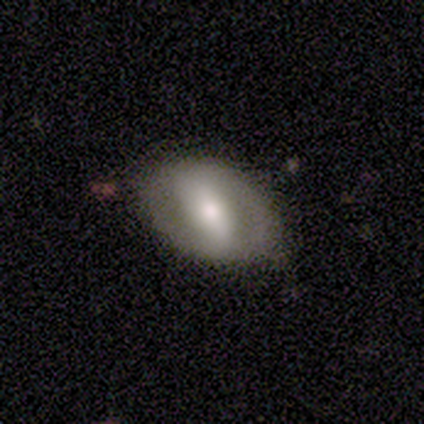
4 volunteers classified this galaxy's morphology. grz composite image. It shows a smooth galaxy with no disk features (75%) that is in between round and cigar-shaped (100%). Merging: none (25%, tied with minor disturbance, major disturbance and merger).